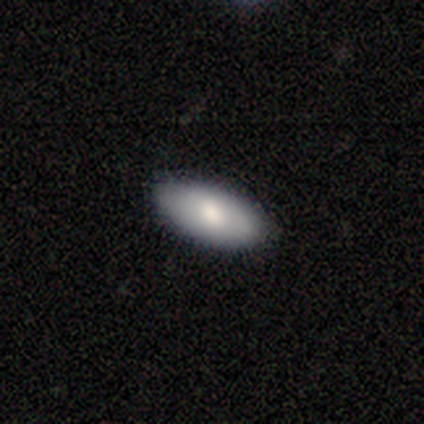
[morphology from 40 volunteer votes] Q: Smooth or featured?
A: smooth (57%); runner-up: featured or disk (35%)
Q: How rounded?
A: in between (87%); runner-up: cigar-shaped (9%)
Q: Merging?
A: none (84%); runner-up: minor disturbance (8%)